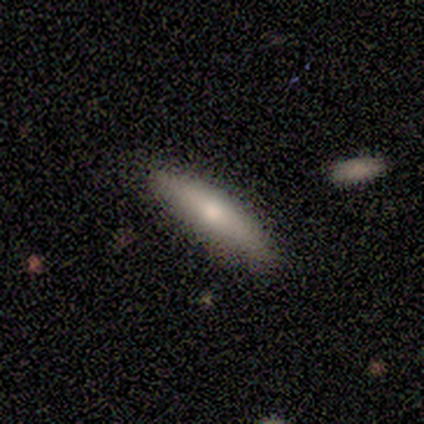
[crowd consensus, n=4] smooth_or_featured: smooth (p=1.00)
how_rounded: in between (p=0.50) [tied with: cigar-shaped p=0.50]
merging: none (p=1.00)